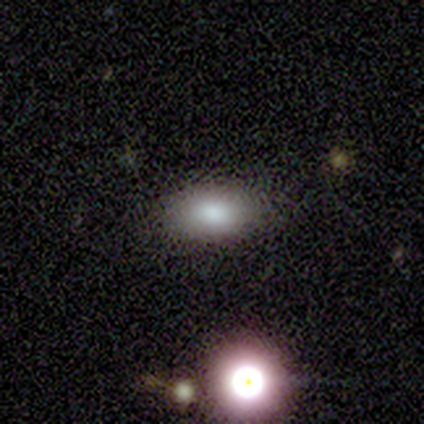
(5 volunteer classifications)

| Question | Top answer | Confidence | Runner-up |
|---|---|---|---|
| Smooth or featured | smooth | 100% | — |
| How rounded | in between | 80% | round (20%) |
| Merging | none | 100% | — |